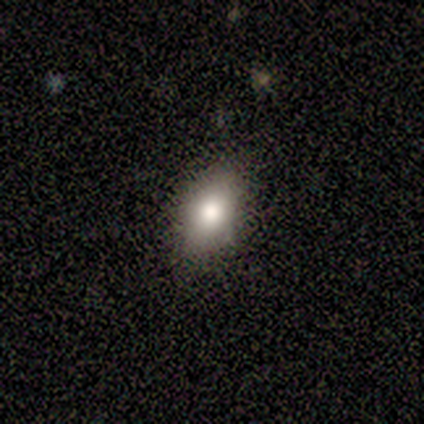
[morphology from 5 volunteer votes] Smooth or featured: smooth — 80% (star or artifact — 20%)
How rounded: in between — 100%
Merging: none — 75% (minor disturbance — 25%)